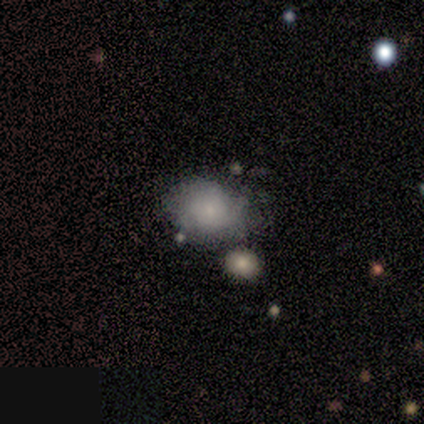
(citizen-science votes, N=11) This appears to be a smooth galaxy with no disk features (73%) that is in between round and cigar-shaped (62%). Merging: none (73%).